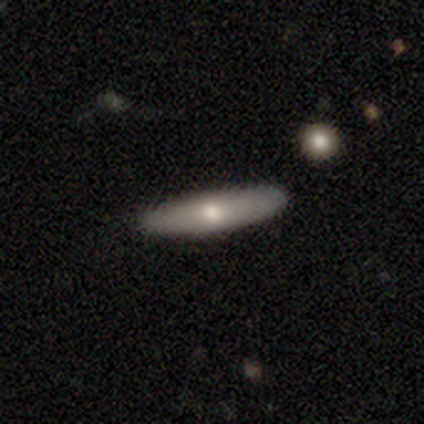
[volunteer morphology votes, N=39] smooth-or-featured: smooth: 56% | featured or disk: 41% | star or artifact: 3%
  how-rounded: cigar-shaped: 86% | in between: 9% | round: 5%
  merging: none: 92% | minor disturbance: 5% | merger: 3% | major disturbance: 0%